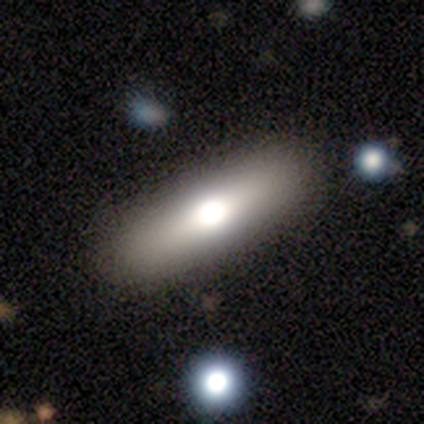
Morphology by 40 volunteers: type=smooth (57%); roundness=in between (52%); merging=none (90%).